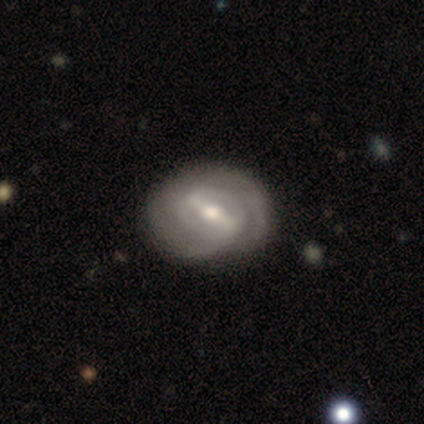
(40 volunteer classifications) featured or disk 95%, smooth 2%, star or artifact 2%. Down the decision tree: edge-on disk — no (97%); bar — strong (73%); spiral arms — yes (86%); spiral arm count — 2 (66%); spiral winding — tight (50%); bulge size — moderate (73%); merging — none (67%).